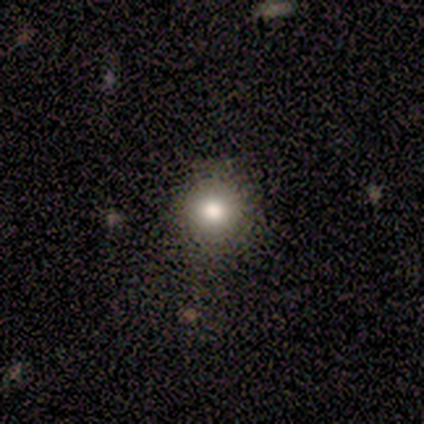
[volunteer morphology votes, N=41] Q: Smooth or featured?
A: smooth (76%); runner-up: star or artifact (17%)
Q: How rounded?
A: round (84%); runner-up: in between (16%)
Q: Merging?
A: none (88%); runner-up: minor disturbance (9%)